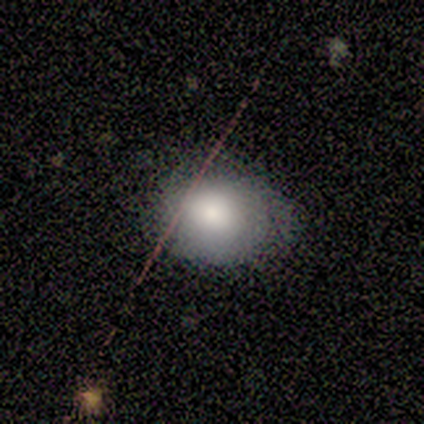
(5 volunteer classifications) Volunteers were most divided on "how rounded": round: 60%, in between: 40%, cigar-shaped: 0%. More confident: smooth or featured — smooth (100%); merging — none (60%).